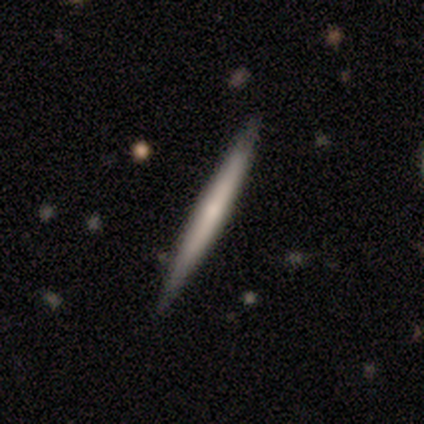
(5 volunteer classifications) Smooth or featured: smooth — 80% (featured or disk — 20%)
How rounded: cigar-shaped — 75% (in between — 25%)
Merging: none — 60% (minor disturbance — 20%)